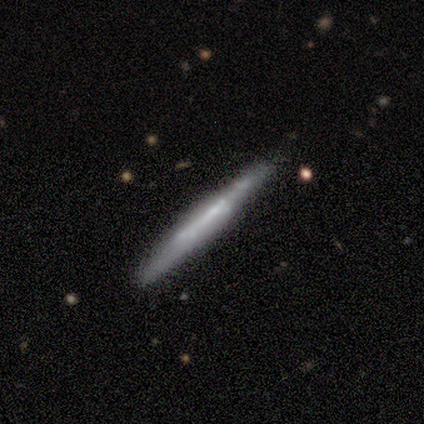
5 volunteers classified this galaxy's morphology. A smooth galaxy with no disk features (80%) that is cigar-shaped (100%). Merging: none (100%).